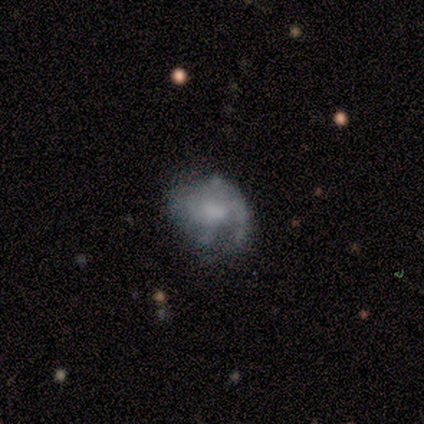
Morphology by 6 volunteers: A featured or disk galaxy (67%) with no bar (75%), medium (100%) spiral arms (50%, tied with no) and a moderate central bulge (50%, tied with none). Merging: none (50%, tied with minor disturbance).